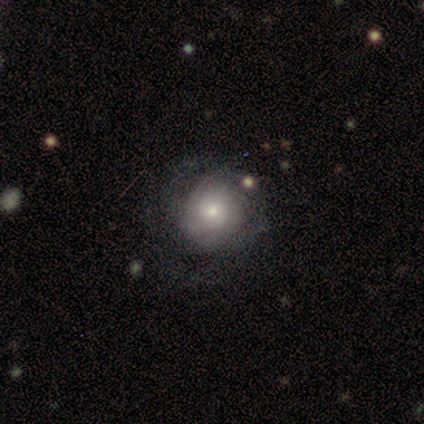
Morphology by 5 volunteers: Smooth or featured? 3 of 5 (60%) said featured or disk. Edge-on disk? 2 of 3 (67%) said no. Bar? 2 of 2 (100%) said no. Spiral arms? 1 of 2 (50%, tied with no) said yes. Spiral winding? 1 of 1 (100%) said tight. Spiral arm count? 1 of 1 (100%) said can't tell. Bulge size? 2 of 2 (100%) said small. Merging? 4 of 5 (80%) said none.